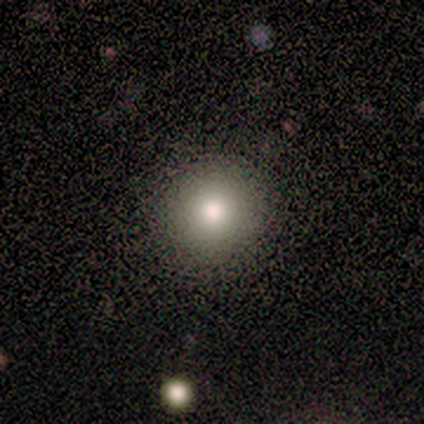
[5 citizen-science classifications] smooth_or_featured: smooth (p=0.60) [alt: featured or disk p=0.20]
how_rounded: round (p=1.00)
merging: none (p=0.75) [alt: major disturbance p=0.25]